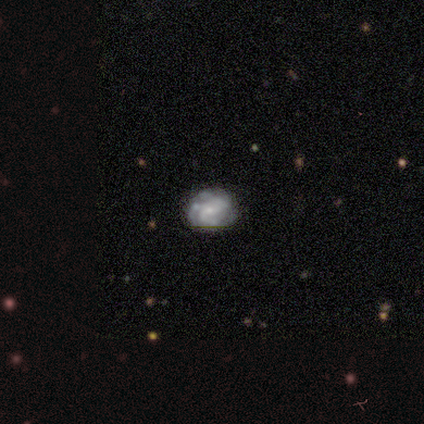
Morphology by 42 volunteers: This appears to be a featured or disk galaxy (76%) with no bar (75%), 3 (46%) tight (42%) spiral arms (81%) and a small central bulge (66%). Merging: none (78%).